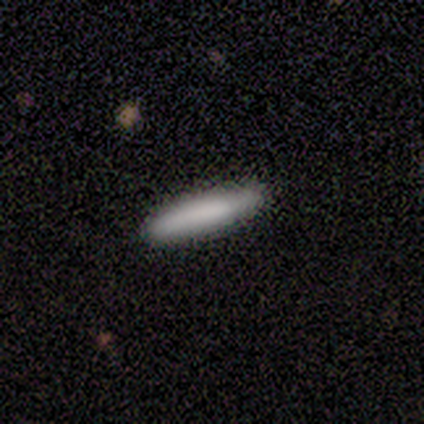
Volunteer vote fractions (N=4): smooth_or_featured: featured or disk (p=0.75) [alt: smooth p=0.25]
disk_edge_on: yes (p=0.67) [alt: no p=0.33]
edge_on_bulge: none (p=1.00)
merging: none (p=0.75) [alt: minor disturbance p=0.25]